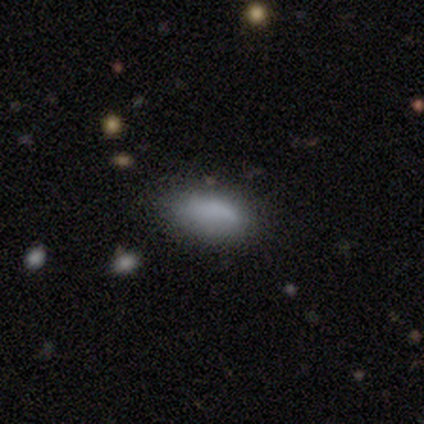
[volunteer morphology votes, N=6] Smooth or featured?
  - smooth: 100% *
  - featured or disk: 0%
  - star or artifact: 0%
How rounded?
  - in between: 100% *
  - round: 0%
  - cigar-shaped: 0%
Merging?
  - none: 67% *
  - minor disturbance: 17%
  - major disturbance: 17%
  - merger: 0%